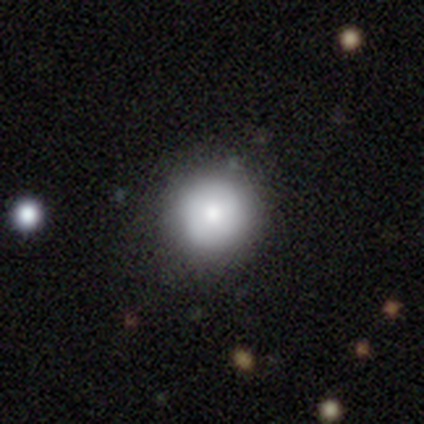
Smooth or featured? 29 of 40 (72%) said smooth. How rounded? 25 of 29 (86%) said round. Merging? 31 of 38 (82%) said none.